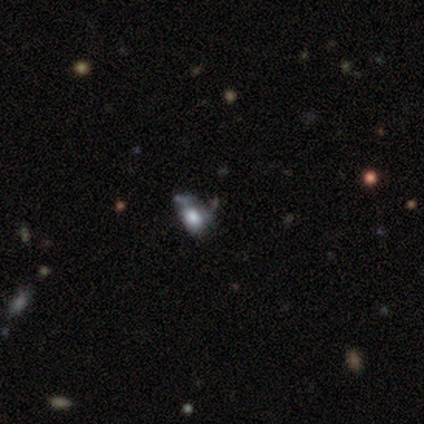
This is possibly a smooth galaxy (50%). How rounded: possibly round (50%, tied with in between). Merging: marginally none (33%, tied with minor disturbance and merger).